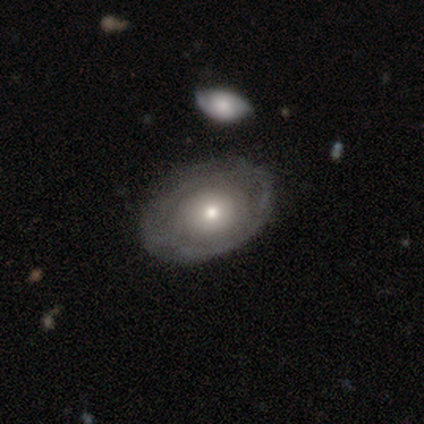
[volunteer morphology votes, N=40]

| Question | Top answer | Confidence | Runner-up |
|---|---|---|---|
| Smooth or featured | featured or disk | 70% | smooth (28%) |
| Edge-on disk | no | 96% | yes (4%) |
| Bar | no | 89% | weak (11%) |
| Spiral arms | no | 78% | yes (22%) |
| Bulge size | moderate | 56% | small (37%) |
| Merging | none | 46% | minor disturbance (13%) |